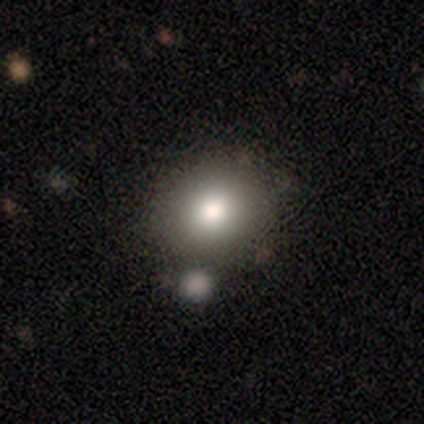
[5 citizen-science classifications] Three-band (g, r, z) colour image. It shows a smooth galaxy with no disk features (60%) that is round (100%). Merging: none (50%).